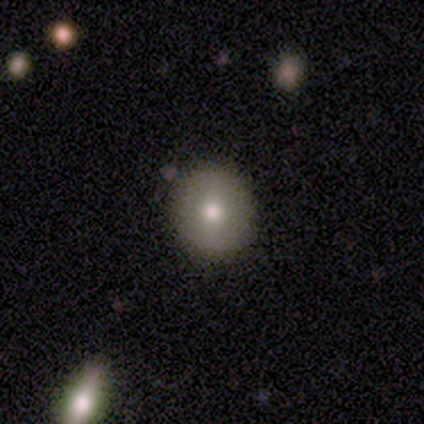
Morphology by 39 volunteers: Smooth or featured? smooth (62%)
How rounded? round (83%)
Merging? none (91%)